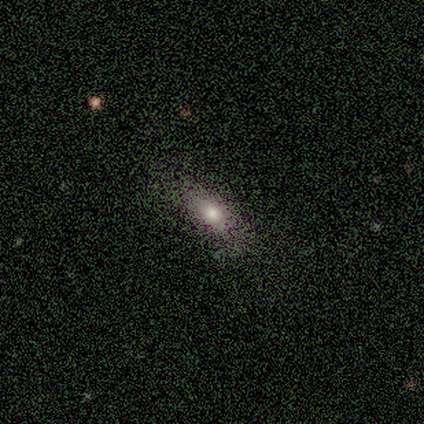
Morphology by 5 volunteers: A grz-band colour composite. It shows a smooth galaxy with no disk features (40%, tied with star or artifact) that is in between round and cigar-shaped (50%, tied with cigar-shaped). Merging: minor disturbance (67%).